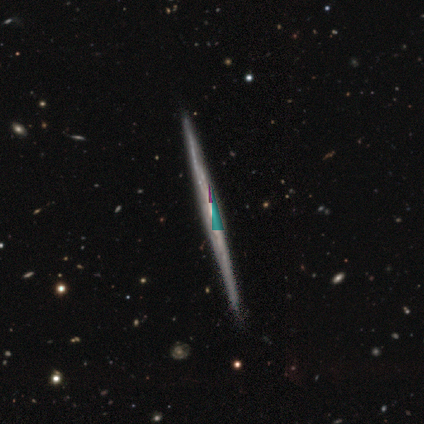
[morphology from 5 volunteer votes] A featured or disk galaxy (80%) viewed edge-on (100%) with no central bulge (100%).

Vote fractions:
- Smooth or featured? featured or disk: 80% / star or artifact: 20% / smooth: 0%
- Edge-on disk? yes: 100% / no: 0%
- Edge-on bulge? none: 100% / boxy: 0% / rounded: 0%
- Merging? none: 75% / minor disturbance: 25% / major disturbance: 0% / merger: 0%